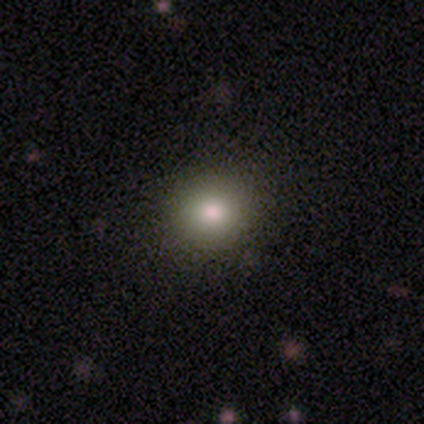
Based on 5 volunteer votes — Q: Smooth or featured?
A: smooth (100%)
Q: How rounded?
A: round (80%); runner-up: in between (20%)
Q: Merging?
A: none (100%)